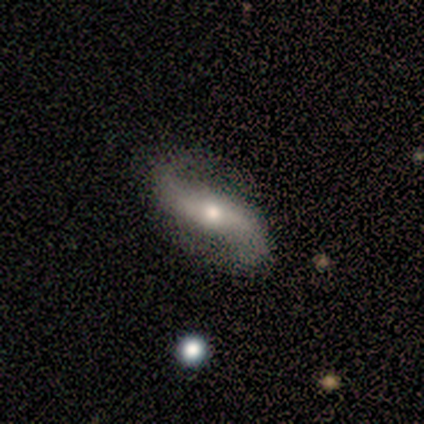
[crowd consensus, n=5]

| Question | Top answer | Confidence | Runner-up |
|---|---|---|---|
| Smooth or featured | featured or disk | 80% | smooth (20%) |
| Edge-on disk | no | 75% | yes (25%) |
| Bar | no | 100% | — |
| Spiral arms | yes | 100% | — |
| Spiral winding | loose | 100% | — |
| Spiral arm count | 2 | 100% | — |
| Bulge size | moderate | 100% | — |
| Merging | none | 80% | major disturbance (20%) |